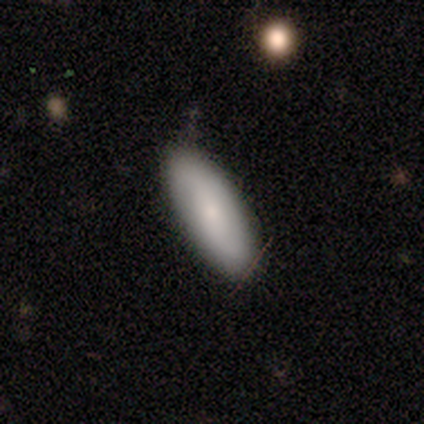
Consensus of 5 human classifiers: Smooth or featured? 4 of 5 (80%) said smooth. How rounded? 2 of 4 (50%, tied with cigar-shaped) said in between. Merging? 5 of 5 (100%) said none.